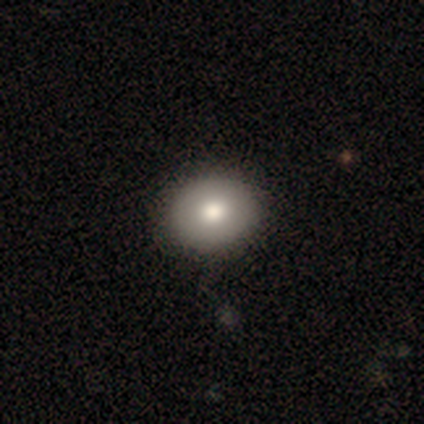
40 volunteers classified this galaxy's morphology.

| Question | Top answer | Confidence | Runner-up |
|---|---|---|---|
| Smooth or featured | smooth | 75% | featured or disk (22%) |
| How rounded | round | 70% | in between (27%) |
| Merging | none | 67% | minor disturbance (5%) |